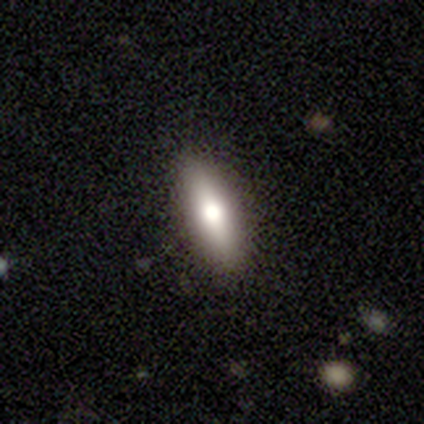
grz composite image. It shows a smooth galaxy with no disk features (60%) that is cigar-shaped (62%). Merging: none (92%).